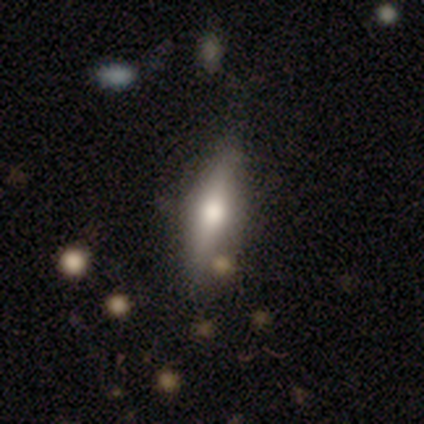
Overall: featured or disk (50%; smooth 42%). Edge-on disk: yes (83%). Edge-on bulge: rounded (93%). Merging: none (73%).